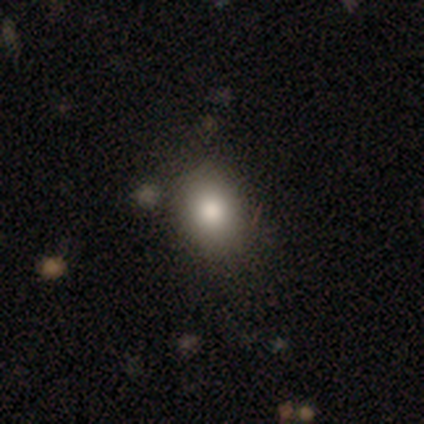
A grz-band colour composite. It shows a smooth galaxy with no disk features (76%) that is in between round and cigar-shaped (58%). Merging: none (82%).